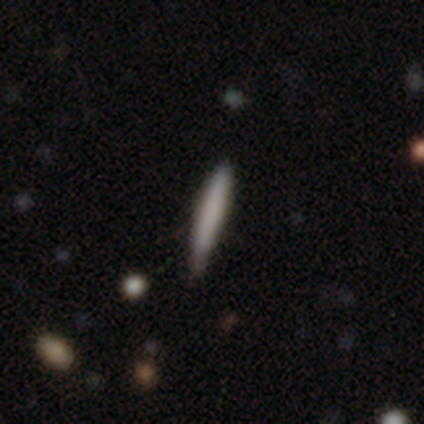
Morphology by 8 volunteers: smooth-or-featured: smooth: 100% | featured or disk: 0% | star or artifact: 0%
  how-rounded: cigar-shaped: 100% | round: 0% | in between: 0%
  merging: none: 88% | minor disturbance: 12% | major disturbance: 0% | merger: 0%